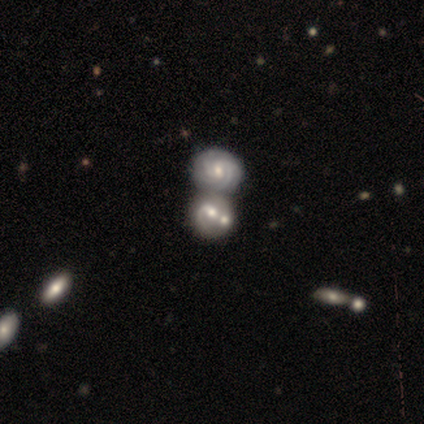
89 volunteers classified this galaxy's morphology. This appears to be a featured or disk galaxy (74%) with no bar (62%), 1 (40%) tight (55%) spiral arms (85%) and a moderate central bulge (71%). Merging: merger (72%).